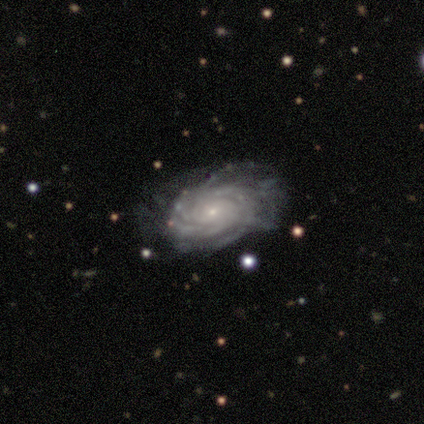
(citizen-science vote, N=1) Morphology: type=featured or disk (100%); edge-on=no (100%); bar=no (100%); spiral arms=yes (100%); winding=tight (100%); arm count=can't tell (100%); bulge=small (100%); merging=none (100%).